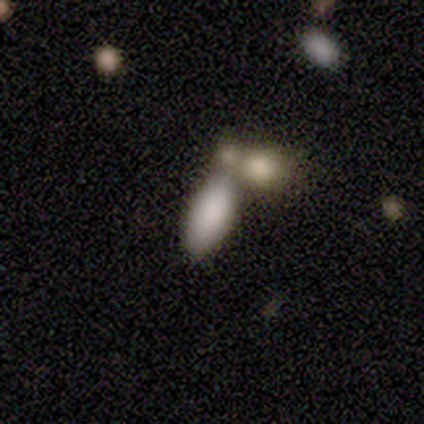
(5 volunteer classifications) smooth_or_featured: smooth (p=0.80) [alt: featured or disk p=0.20]
how_rounded: in between (p=1.00)
merging: none (p=0.60) [alt: merger p=0.40]